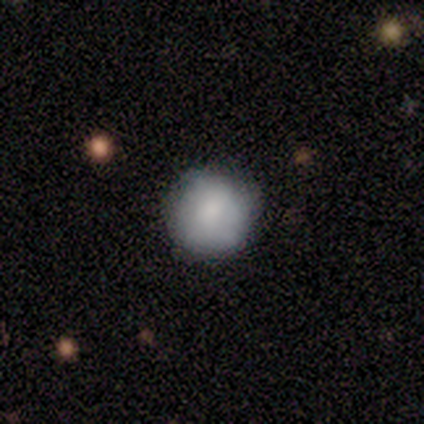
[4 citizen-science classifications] smooth_or_featured: smooth (p=0.75) [alt: featured or disk p=0.25]
how_rounded: round (p=1.00)
merging: none (p=1.00)